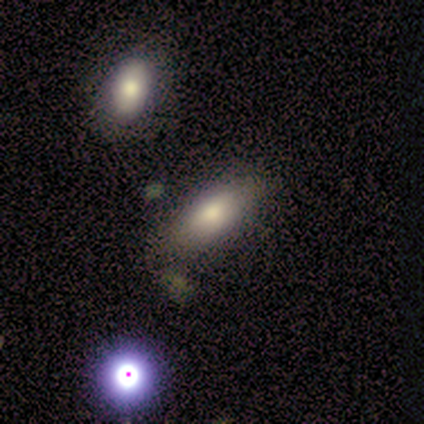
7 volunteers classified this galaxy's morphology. Smooth or featured? smooth (86%)
How rounded? in between (100%)
Merging? none (67%)